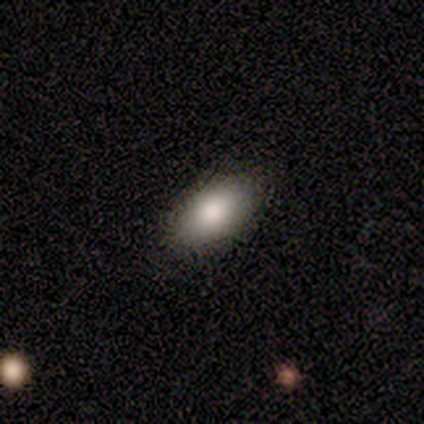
A smooth galaxy with no disk features (80%) that is in between round and cigar-shaped (100%). Merging: none (100%).